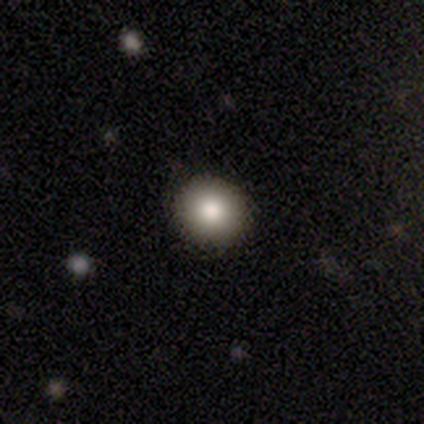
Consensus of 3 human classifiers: This appears to be a smooth galaxy with no disk features (67%) that is round (100%). Merging: none (67%).